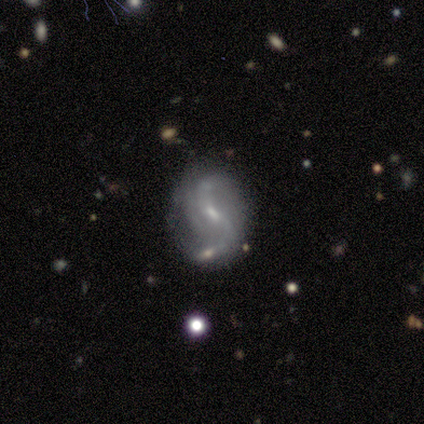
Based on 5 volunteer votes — smooth-or-featured: featured or disk: 80% | star or artifact: 20% | smooth: 0%
  disk-edge-on: no: 100% | yes: 0%
    bar: weak: 50% (tied) | no: 50% (tied) | strong: 0%
    has-spiral-arms: yes: 100% | no: 0%
      spiral-winding: loose: 75% | medium: 25% | tight: 0%
      spiral-arm-count: 2: 75% | 3: 25% | 1: 0% | 4: 0% | more than 4: 0% | can't tell: 0%
    bulge-size: small: 100% | dominant: 0% | large: 0% | moderate: 0% | none: 0%
  merging: none: 100% | minor disturbance: 0% | major disturbance: 0% | merger: 0%